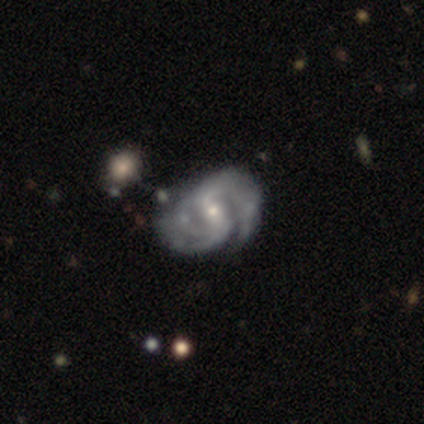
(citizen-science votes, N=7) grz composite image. It shows a featured or disk galaxy (86%) with a weak bar (60%), 2 (100%) medium (100%) spiral arms (100%) and a moderate central bulge (60%). Merging: none (83%).